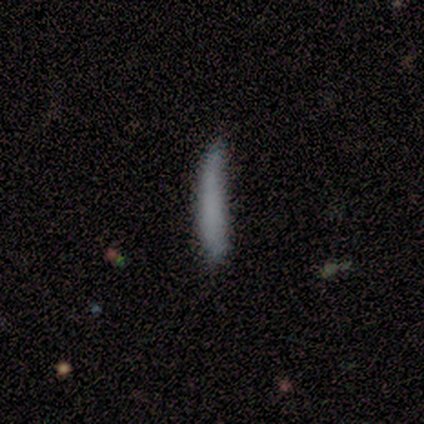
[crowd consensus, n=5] A smooth galaxy with no disk features (80%) that is cigar-shaped (75%).

Vote fractions:
- Smooth or featured? smooth: 80% / star or artifact: 20% / featured or disk: 0%
- How rounded? cigar-shaped: 75% / in between: 25% / round: 0%
- Merging? none: 75% / minor disturbance: 25% / major disturbance: 0% / merger: 0%